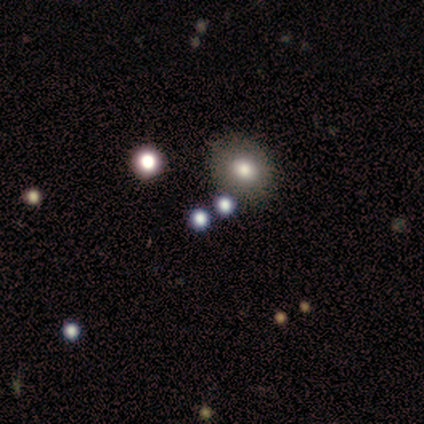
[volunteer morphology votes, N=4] type=smooth (100%); roundness=round (75%); merging=none (75%).